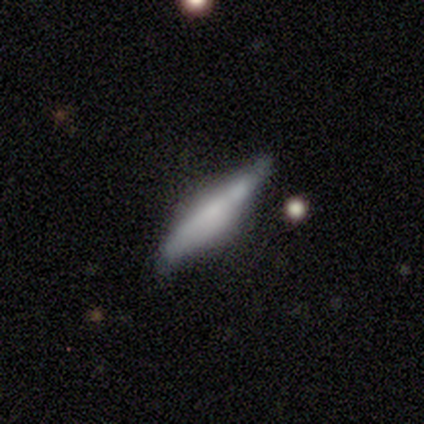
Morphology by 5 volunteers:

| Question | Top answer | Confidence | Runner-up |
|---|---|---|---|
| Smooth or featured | smooth | 80% | featured or disk (20%) |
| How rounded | in between | 50% | tied: cigar-shaped (50%) |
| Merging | minor disturbance | 60% | none (40%) |